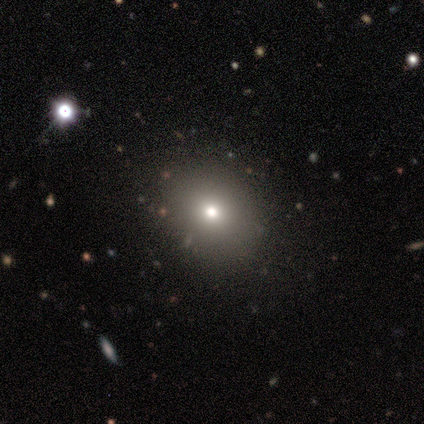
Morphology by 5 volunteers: type=smooth (40%, tied with featured or disk); roundness=round (100%); merging=none (100%).